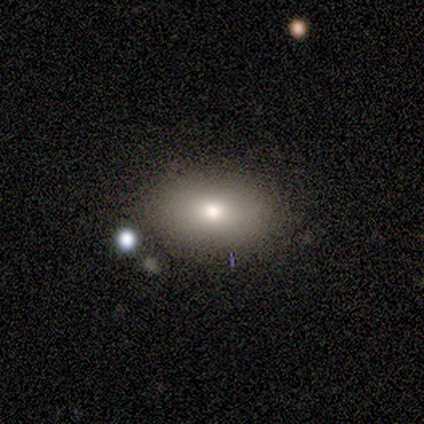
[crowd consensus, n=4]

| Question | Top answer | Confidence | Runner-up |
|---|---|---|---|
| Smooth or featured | smooth | 75% | featured or disk (25%) |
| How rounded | in between | 67% | cigar-shaped (33%) |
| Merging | none | 100% | — |